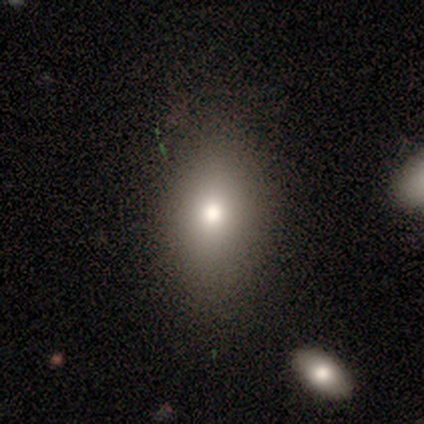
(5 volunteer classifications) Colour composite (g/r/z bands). It shows a smooth galaxy with no disk features (80%) that is round (50%, tied with in between). Merging: none (50%).